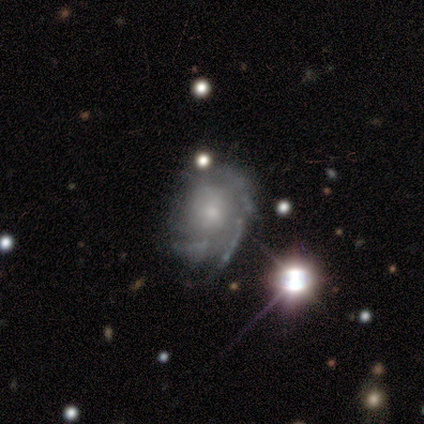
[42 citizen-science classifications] This appears to be a featured or disk galaxy (88%) with no bar (94%), tight (48%) spiral arms (81%) and a small central bulge (64%). Merging: none (50%).